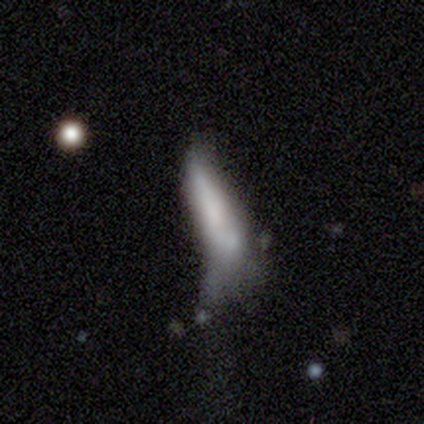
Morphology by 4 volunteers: smooth_or_featured: smooth (p=0.50) [alt: featured or disk p=0.25]
how_rounded: in between (p=0.50) [tied with: cigar-shaped p=0.50]
merging: minor disturbance (p=0.67) [alt: major disturbance p=0.33]